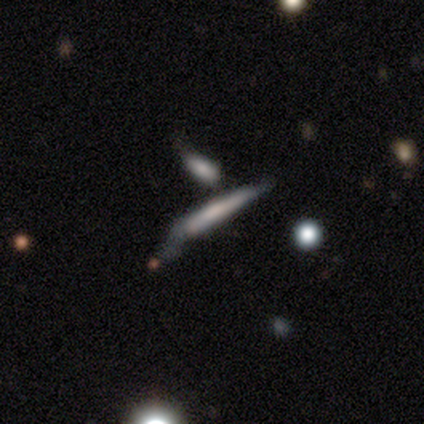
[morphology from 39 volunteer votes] A featured or disk galaxy (59%) viewed edge-on (87%) with no central bulge (50%). Merging: minor disturbance (34%).